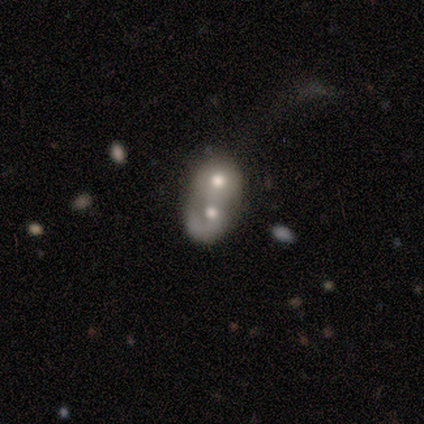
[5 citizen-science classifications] Smooth or featured? smooth (40%, tied with featured or disk)
How rounded? in between (100%)
Merging? merger (100%)